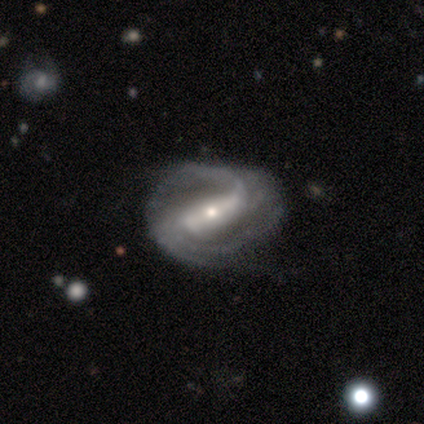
smooth-or-featured: featured or disk: 80% | star or artifact: 20% | smooth: 0%
  disk-edge-on: no: 100% | yes: 0%
    bar: strong: 75% | no: 25% | weak: 0%
    has-spiral-arms: yes: 100% | no: 0%
      spiral-winding: medium: 50% | tight: 25% | loose: 25%
      spiral-arm-count: 2: 25% (tied) | 3: 25% (tied) | 4: 25% (tied) | can't tell: 25% (tied) | 1: 0% | more than 4: 0%
    bulge-size: small: 50% | large: 25% | moderate: 25% | dominant: 0% | none: 0%
  merging: none: 50% | minor disturbance: 25% | major disturbance: 25% | merger: 0%